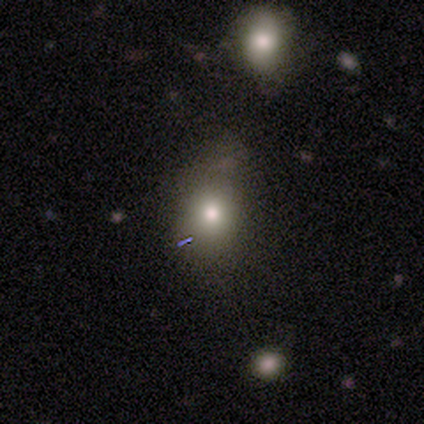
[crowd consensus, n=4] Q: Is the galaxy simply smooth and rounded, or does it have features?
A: smooth — 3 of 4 (75%).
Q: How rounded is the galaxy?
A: round — 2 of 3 (67%).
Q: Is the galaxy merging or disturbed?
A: none — 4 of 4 (100%).